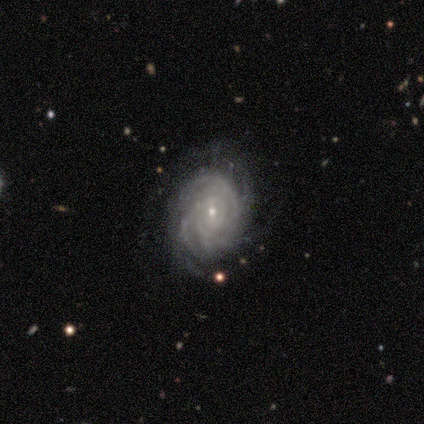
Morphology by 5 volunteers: featured or disk 100%, smooth 0%, star or artifact 0%. Down the decision tree: edge-on disk — no (100%); bar — no (60%); spiral arms — yes (100%); spiral arm count — 4 (40%); spiral winding — tight (80%); bulge size — small (80%); merging — none (60%).